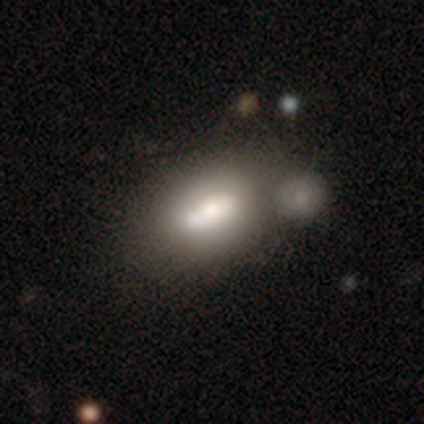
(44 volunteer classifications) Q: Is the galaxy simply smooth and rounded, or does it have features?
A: smooth — 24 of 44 (55%).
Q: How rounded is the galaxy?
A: in between — 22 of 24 (92%).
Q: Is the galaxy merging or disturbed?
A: none — 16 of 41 (39%).